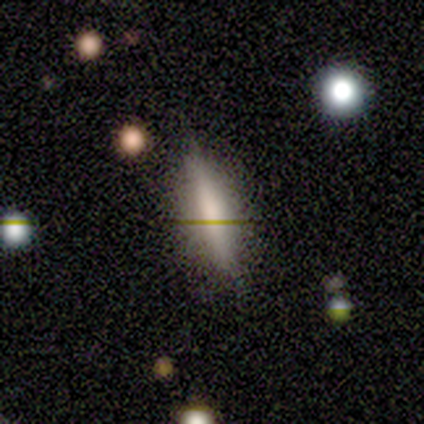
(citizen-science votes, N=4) A star or artifact, not a galaxy (50%).

Vote fractions:
- Smooth or featured? star or artifact: 50% / smooth: 25% / featured or disk: 25%